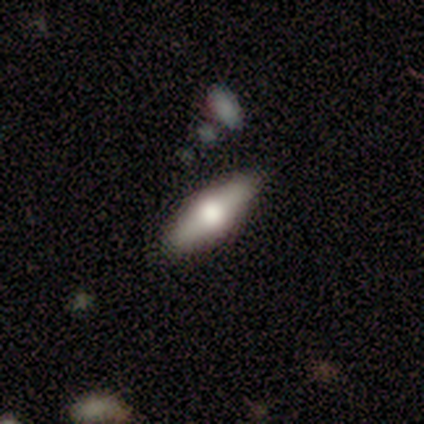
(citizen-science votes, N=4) Volunteers were most divided on "smooth or featured" (2-way tie): smooth: 50%, featured or disk: 50%, star or artifact: 0%. More confident: how rounded — in between (100%); merging — none (75%).